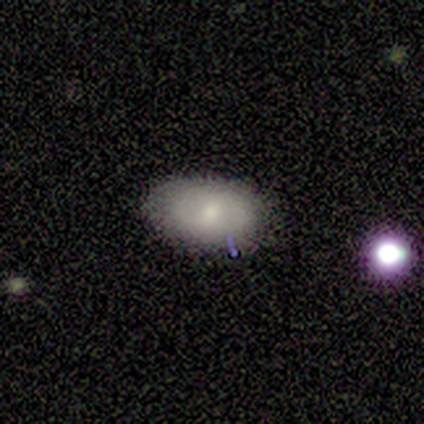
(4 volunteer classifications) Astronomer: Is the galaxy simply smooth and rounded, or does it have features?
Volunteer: smooth — 100%.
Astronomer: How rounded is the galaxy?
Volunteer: in between — 75%.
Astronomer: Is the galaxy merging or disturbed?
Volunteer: none — 50%.